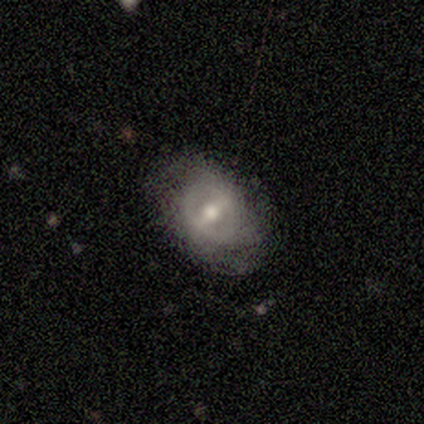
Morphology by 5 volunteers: smooth_or_featured: smooth (p=0.60) [alt: featured or disk p=0.40]
how_rounded: in between (p=1.00)
merging: none (p=0.60) [alt: minor disturbance p=0.40]